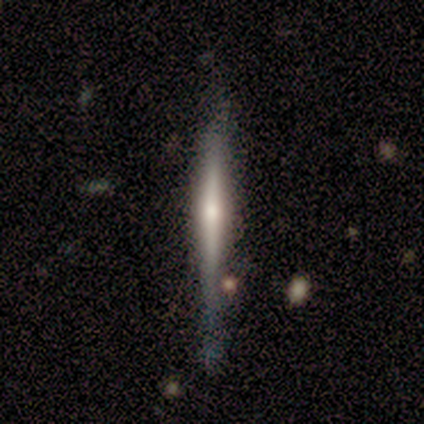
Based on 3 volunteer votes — Smooth or featured? featured or disk (100%)
Edge-on disk? yes (100%)
Edge-on bulge? rounded (67%)
Merging? none (67%)